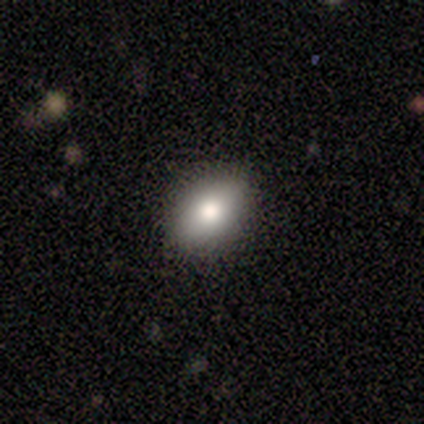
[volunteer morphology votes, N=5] smooth_or_featured: smooth (p=0.80) [alt: featured or disk p=0.20]
how_rounded: in between (p=0.50) [alt: round p=0.25]
merging: none (p=1.00)